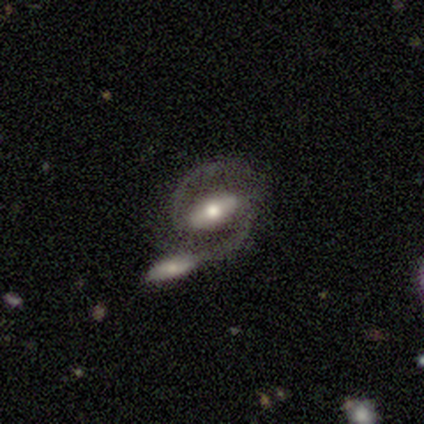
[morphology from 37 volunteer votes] Smooth or featured? featured or disk (97%)
Edge-on disk? no (100%)
Bar? strong (56%)
Spiral arms? yes (94%)
Spiral winding? medium (74%)
Spiral arm count? 2 (100%)
Bulge size? moderate (64%)
Merging? merger (49%)